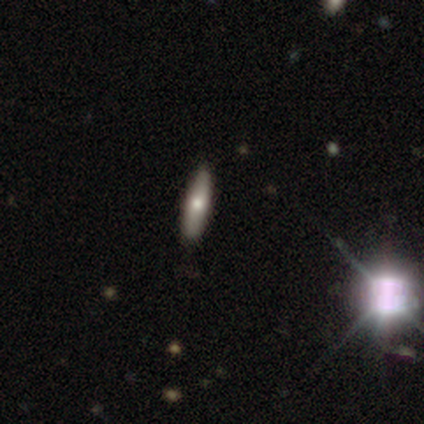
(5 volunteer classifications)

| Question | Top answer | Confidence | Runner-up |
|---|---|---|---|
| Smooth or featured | smooth | 40% | tied: featured or disk (40%) |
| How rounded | cigar-shaped | 100% | — |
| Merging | none | 100% | — |